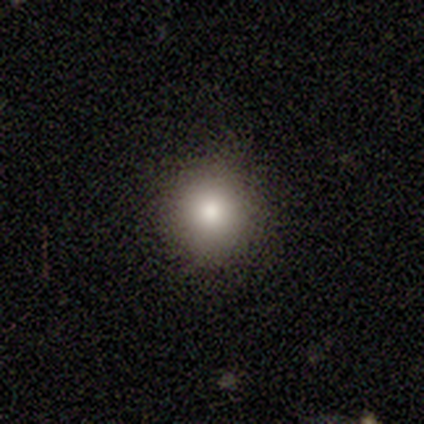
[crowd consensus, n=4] Q: Smooth or featured?
A: smooth (75%); runner-up: star or artifact (25%)
Q: How rounded?
A: round (100%)
Q: Merging?
A: none (100%)